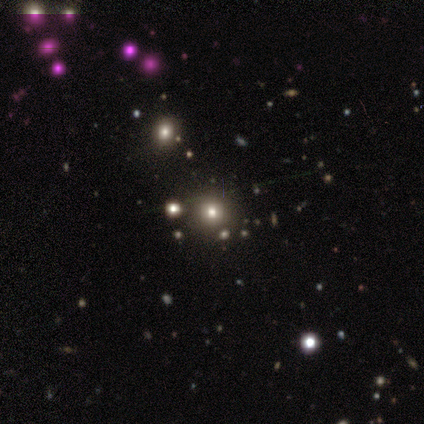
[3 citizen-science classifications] smooth-or-featured: smooth: 33% (tied) | featured or disk: 33% (tied) | star or artifact: 33% (tied)
  how-rounded: round: 100% | in between: 0% | cigar-shaped: 0%
  merging: none: 100% | minor disturbance: 0% | major disturbance: 0% | merger: 0%